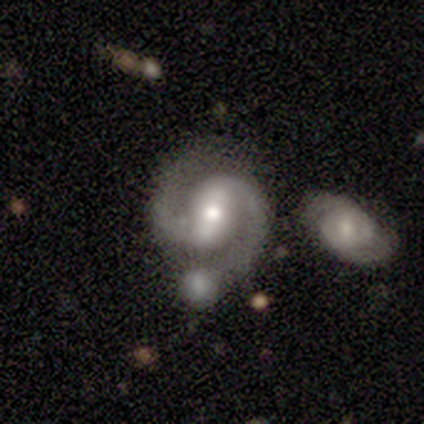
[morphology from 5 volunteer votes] Overall: featured or disk (80%). Edge-on disk: no (100%). Bar: strong (75%). Spiral arms: yes (100%). Spiral arm count: 2 (100%). Spiral winding: medium (75%). Bulge size: large (50%, tied with moderate). Merging: none (50%; minor disturbance 25%).